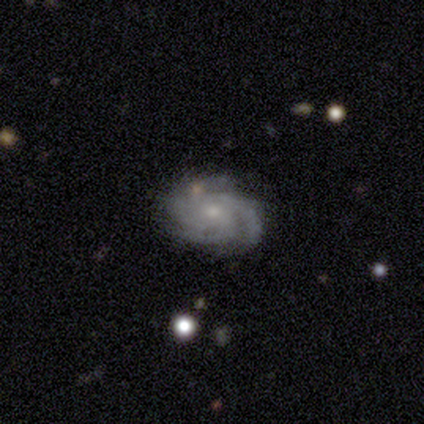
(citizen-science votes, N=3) A featured or disk galaxy (100%) with no bar (100%), 3 (67%) tight (100%) spiral arms (100%) and a moderate central bulge (67%). Merging: none (67%).